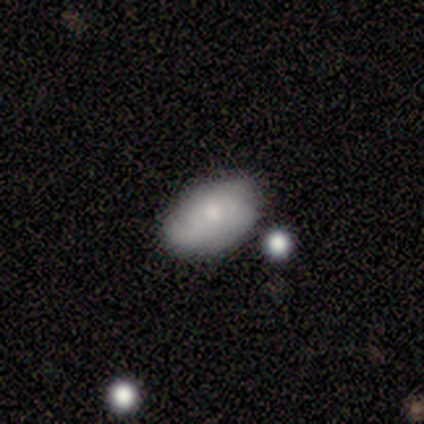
Smooth or featured?
  - smooth: 45% * (tied)
  - featured or disk: 45% * (tied)
  - star or artifact: 9%
How rounded?
  - in between: 80% *
  - round: 20%
  - cigar-shaped: 0%
Merging?
  - none: 80% *
  - minor disturbance: 20%
  - major disturbance: 0%
  - merger: 0%